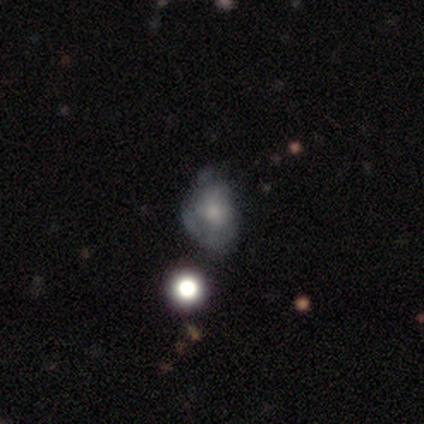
Smooth or featured?
  - smooth: 60% *
  - featured or disk: 20%
  - star or artifact: 20%
How rounded?
  - in between: 67% *
  - round: 33%
  - cigar-shaped: 0%
Merging?
  - none: 75% *
  - minor disturbance: 25%
  - major disturbance: 0%
  - merger: 0%